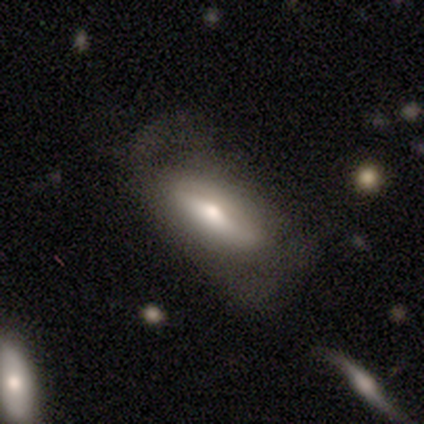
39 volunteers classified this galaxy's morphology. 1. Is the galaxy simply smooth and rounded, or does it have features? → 56% featured or disk, 41% smooth, 3% star or artifact.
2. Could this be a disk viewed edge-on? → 50% yes (tied), 50% no (tied).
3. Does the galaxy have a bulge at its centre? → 82% rounded, 9% boxy, 9% none.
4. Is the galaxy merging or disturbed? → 42% none, 39% major disturbance, 16% minor disturbance, 3% merger.